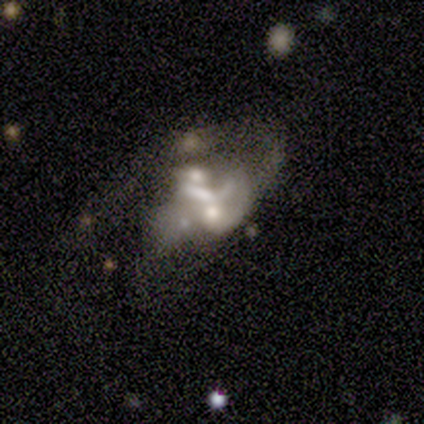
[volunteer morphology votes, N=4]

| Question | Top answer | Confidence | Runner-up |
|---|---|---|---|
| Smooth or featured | featured or disk | 100% | — |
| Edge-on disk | no | 75% | yes (25%) |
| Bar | no | 100% | — |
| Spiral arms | no | 67% | yes (33%) |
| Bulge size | none | 100% | — |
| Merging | none | 25% | tied: minor disturbance (25%), major disturbance (25%), merger (25%) |